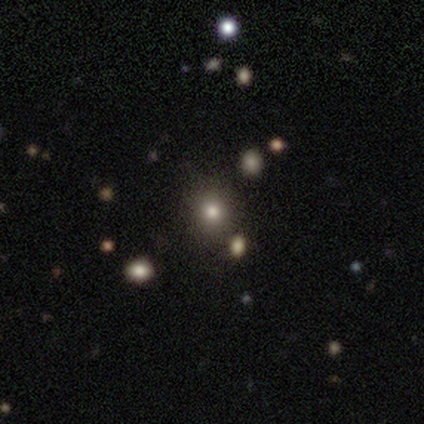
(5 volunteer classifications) A smooth galaxy with no disk features (60%) that is round (100%).

Vote fractions:
- Smooth or featured? smooth: 60% / star or artifact: 40% / featured or disk: 0%
- How rounded? round: 100% / in between: 0% / cigar-shaped: 0%
- Merging? none: 100% / minor disturbance: 0% / major disturbance: 0% / merger: 0%